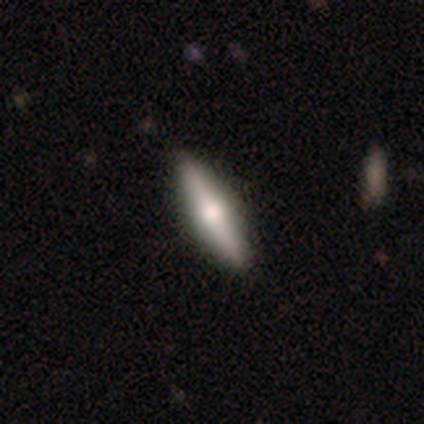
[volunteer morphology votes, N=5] This appears to be a featured or disk galaxy (60%) viewed edge-on (67%) with a rounded central bulge (100%). Merging: none (100%).